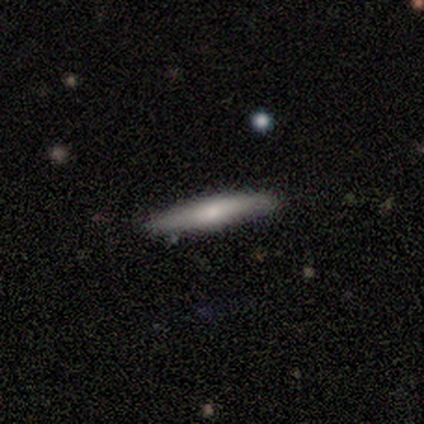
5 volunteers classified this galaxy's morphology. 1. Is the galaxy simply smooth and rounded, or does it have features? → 60% featured or disk, 40% smooth, 0% star or artifact.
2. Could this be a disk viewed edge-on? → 100% yes, 0% no.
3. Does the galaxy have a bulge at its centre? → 67% rounded, 33% none, 0% boxy.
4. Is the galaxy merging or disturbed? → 80% none, 20% minor disturbance, 0% major disturbance, 0% merger.